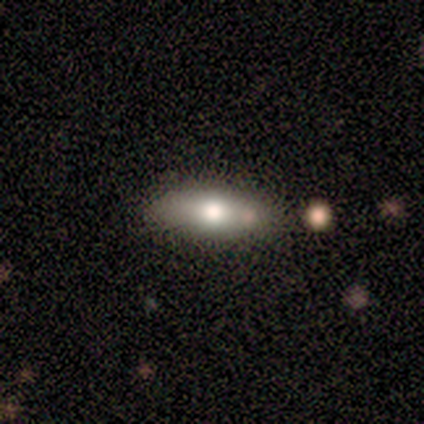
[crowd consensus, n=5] Smooth or featured? smooth (80%)
How rounded? cigar-shaped (75%)
Merging? none (60%)